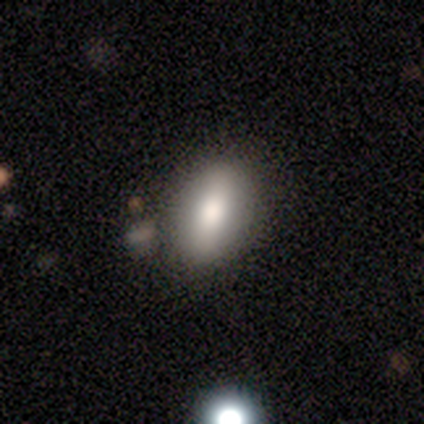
Smooth or featured?
  - smooth: 80% *
  - featured or disk: 20%
  - star or artifact: 0%
How rounded?
  - in between: 100% *
  - round: 0%
  - cigar-shaped: 0%
Merging?
  - none: 100% *
  - minor disturbance: 0%
  - major disturbance: 0%
  - merger: 0%